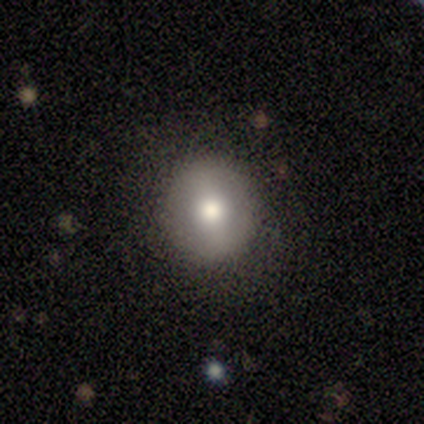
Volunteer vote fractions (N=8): This is possibly a smooth galaxy (50%, tied with featured or disk). How rounded: likely round (75%). Merging: clearly none (100%).